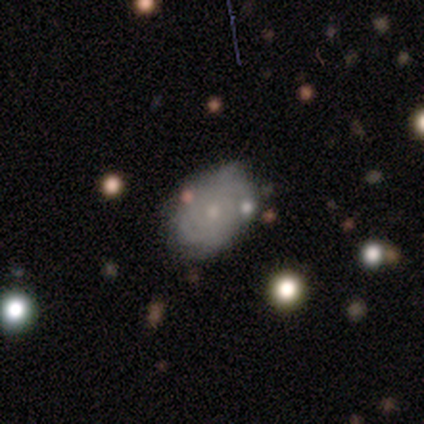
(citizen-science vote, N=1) Smooth or featured? featured or disk (100%)
Edge-on disk? no (100%)
Bar? no (100%)
Spiral arms? yes (100%)
Spiral winding? loose (100%)
Spiral arm count? can't tell (100%)
Bulge size? small (100%)
Merging? minor disturbance (100%)